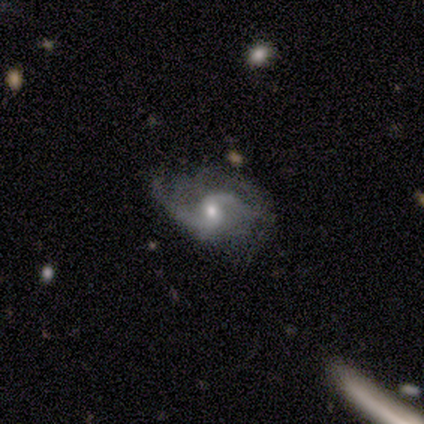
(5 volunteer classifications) smooth_or_featured: featured or disk (p=1.00)
disk_edge_on: no (p=1.00)
bar: no (p=0.60) [alt: weak p=0.40]
has_spiral_arms: yes (p=1.00)
spiral_winding: tight (p=0.40) [tied with: loose p=0.40]
spiral_arm_count: 2 (p=0.80) [alt: 1 p=0.20]
bulge_size: moderate (p=0.60) [alt: small p=0.40]
merging: minor disturbance (p=0.60) [alt: none p=0.20]